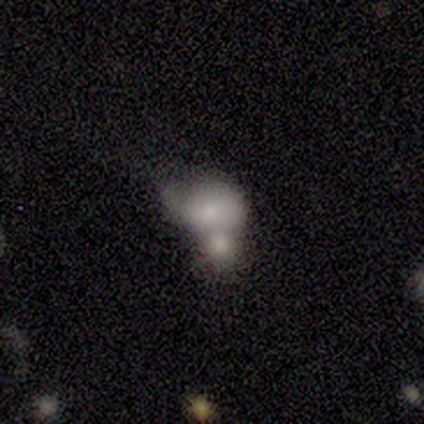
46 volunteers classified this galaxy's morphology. smooth 54%, featured or disk 28%, star or artifact 17%. Down the decision tree: how rounded — in between (52%); merging — merger (74%).